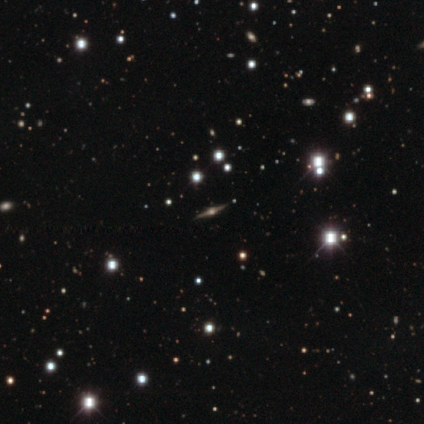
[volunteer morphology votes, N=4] smooth_or_featured: featured or disk (p=1.00)
disk_edge_on: yes (p=1.00)
edge_on_bulge: rounded (p=1.00)
merging: none (p=1.00)